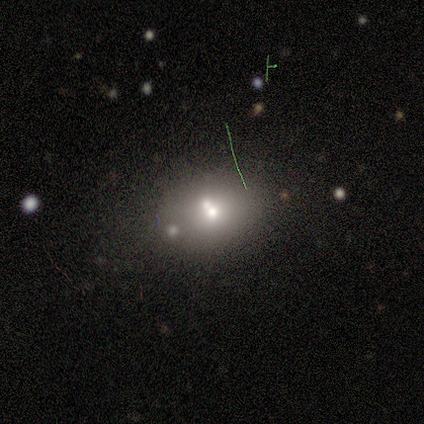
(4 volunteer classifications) Overall: smooth (75%). How rounded: in between (67%; round 33%). Merging: none (50%; minor disturbance 25%).